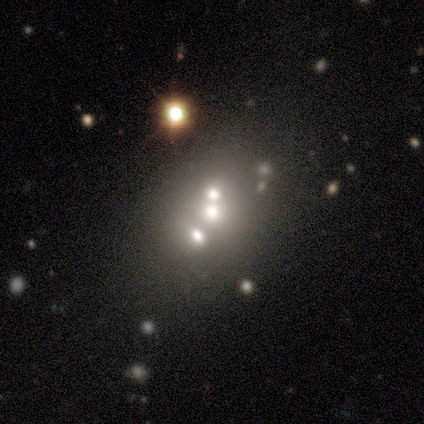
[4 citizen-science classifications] featured or disk 50%, smooth 25%, star or artifact 25%. Down the decision tree: edge-on disk — yes (50%, tied with no); edge-on bulge — none (100%); merging — merger (67%).